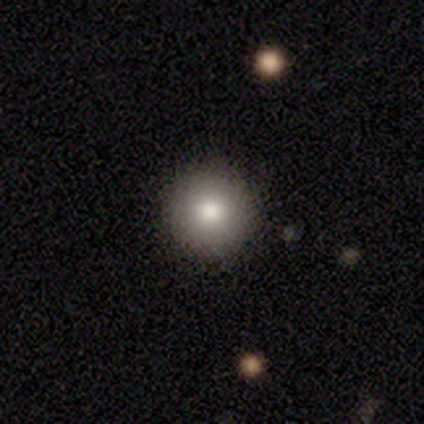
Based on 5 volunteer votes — A smooth galaxy with no disk features (40%, tied with star or artifact) that is round (100%). Merging: none (100%).